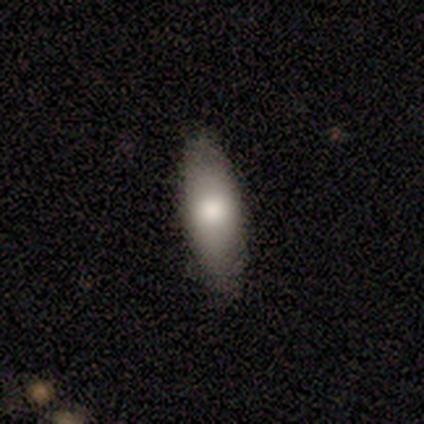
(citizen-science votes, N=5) A smooth galaxy with no disk features (100%) that is in between round and cigar-shaped (60%). Merging: none (100%).